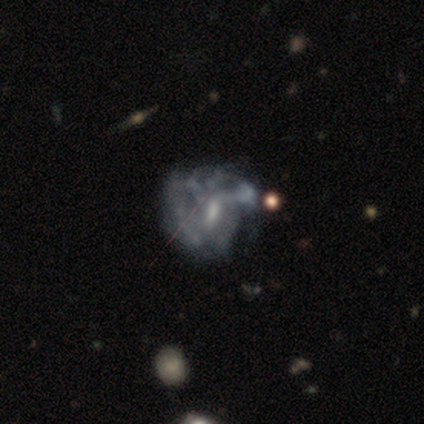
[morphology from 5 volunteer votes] A featured or disk galaxy (60%) with a weak bar (100%), loose (67%) spiral arms (100%) and a moderate central bulge (100%).

Vote fractions:
- Smooth or featured? featured or disk: 60% / star or artifact: 40% / smooth: 0%
- Edge-on disk? no: 100% / yes: 0%
- Bar? weak: 100% / strong: 0% / no: 0%
- Spiral arms? yes: 100% / no: 0%
- Spiral winding? loose: 67% / tight: 33% / medium: 0%
- Spiral arm count? can't tell: 67% / 2: 33% / 1: 0% / 3: 0% / 4: 0% / more than 4: 0%
- Bulge size? moderate: 100% / dominant: 0% / large: 0% / small: 0% / none: 0%
- Merging? none: 67% / minor disturbance: 33% / major disturbance: 0% / merger: 0%